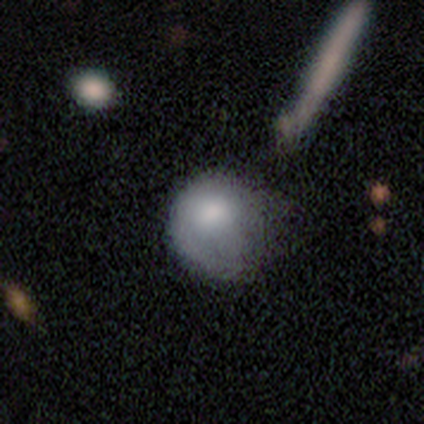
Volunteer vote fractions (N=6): smooth-or-featured: smooth: 83% | featured or disk: 17% | star or artifact: 0%
  how-rounded: round: 100% | in between: 0% | cigar-shaped: 0%
  merging: minor disturbance: 67% | none: 33% | major disturbance: 0% | merger: 0%